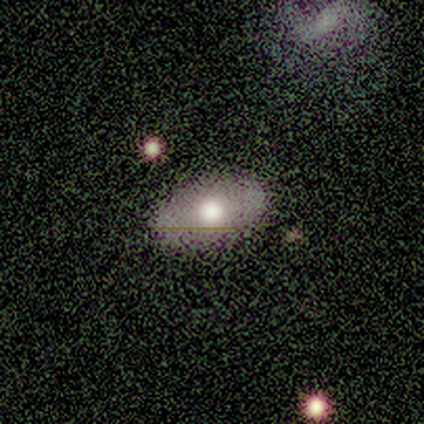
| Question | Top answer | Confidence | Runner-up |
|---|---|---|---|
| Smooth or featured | star or artifact | 75% | smooth (25%) |